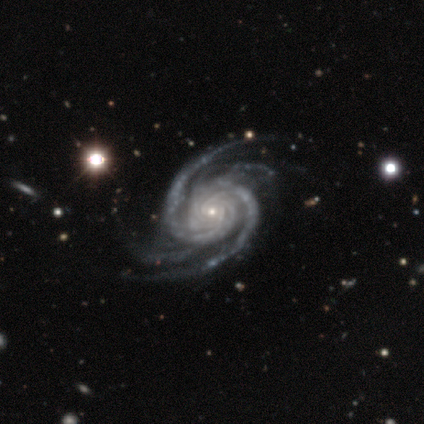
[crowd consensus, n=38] Morphology: type=featured or disk (92%); edge-on=no (97%); bar=no (76%); spiral arms=yes (100%); winding=tight (68%); arm count=4 (50%); bulge=small (88%); merging=none (61%).